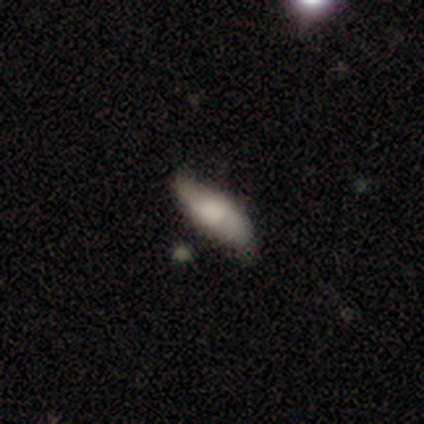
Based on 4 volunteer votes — Smooth or featured? smooth (50%, tied with featured or disk)
How rounded? in between (50%, tied with cigar-shaped)
Merging? none (75%)